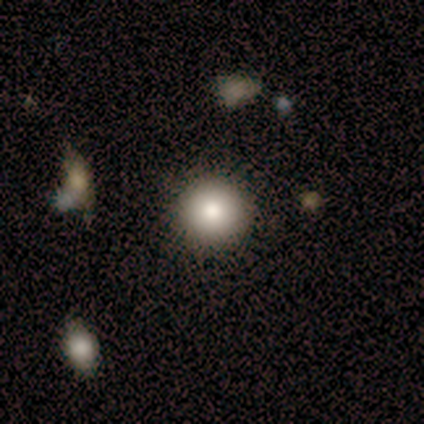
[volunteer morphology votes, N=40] Smooth or featured?
  - smooth: 85% *
  - star or artifact: 10%
  - featured or disk: 5%
How rounded?
  - round: 97% *
  - in between: 3%
  - cigar-shaped: 0%
Merging?
  - none: 97% *
  - minor disturbance: 3%
  - major disturbance: 0%
  - merger: 0%